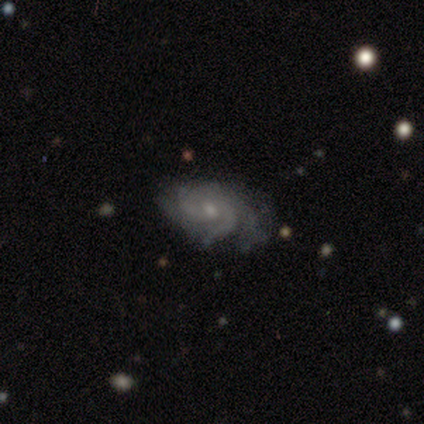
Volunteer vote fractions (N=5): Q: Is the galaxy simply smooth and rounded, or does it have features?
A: featured or disk — 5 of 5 (100%).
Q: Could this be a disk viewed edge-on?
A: no — 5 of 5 (100%).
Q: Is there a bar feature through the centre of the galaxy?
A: no — 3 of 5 (60%).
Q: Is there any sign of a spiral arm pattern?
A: yes — 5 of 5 (100%).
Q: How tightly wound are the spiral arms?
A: tight — 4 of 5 (80%).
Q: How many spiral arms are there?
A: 4 — 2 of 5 (40%).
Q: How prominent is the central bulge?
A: small — 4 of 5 (80%).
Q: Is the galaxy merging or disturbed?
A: none — 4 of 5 (80%).